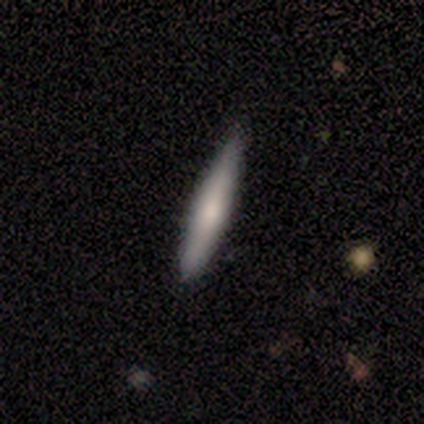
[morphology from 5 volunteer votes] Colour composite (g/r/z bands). It shows a smooth galaxy with no disk features (60%) that is cigar-shaped (100%). Merging: none (100%).